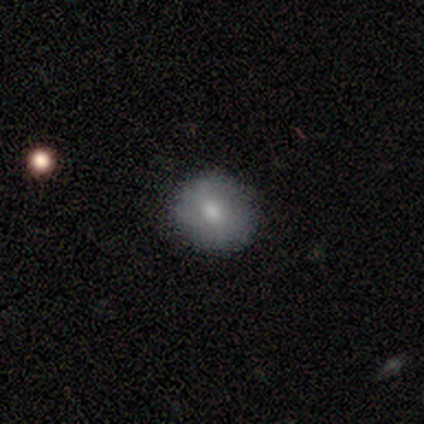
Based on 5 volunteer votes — Smooth or featured? smooth (100%)
How rounded? round (100%)
Merging? none (80%)